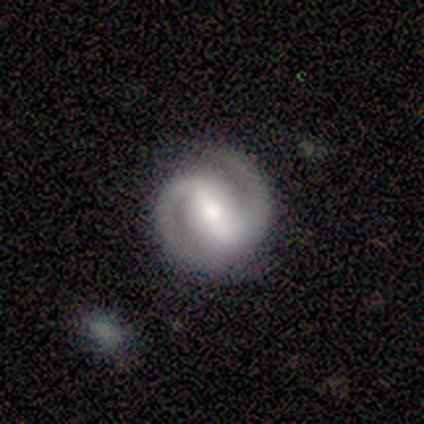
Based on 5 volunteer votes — smooth_or_featured: featured or disk (p=1.00)
disk_edge_on: no (p=1.00)
bar: strong (p=0.80) [alt: weak p=0.20]
has_spiral_arms: yes (p=1.00)
spiral_winding: tight (p=0.40) [tied with: medium p=0.40]
spiral_arm_count: 2 (p=1.00)
bulge_size: small (p=0.60) [alt: large p=0.20]
merging: none (p=0.80) [alt: minor disturbance p=0.20]